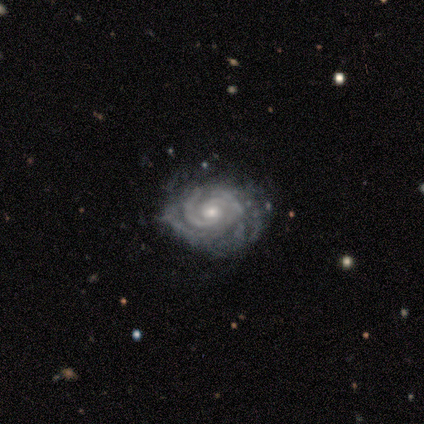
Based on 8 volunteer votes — Smooth or featured?
  - featured or disk: 100% *
  - smooth: 0%
  - star or artifact: 0%
Edge-on disk?
  - no: 100% *
  - yes: 0%
Bar?
  - no: 75% *
  - weak: 25%
  - strong: 0%
Spiral arms?
  - yes: 100% *
  - no: 0%
Spiral winding?
  - tight: 75% *
  - medium: 12%
  - loose: 12%
Spiral arm count?
  - 2: 62% *
  - can't tell: 25%
  - 3: 12%
  - 1: 0%
  - 4: 0%
  - more than 4: 0%
Bulge size?
  - moderate: 50% * (tied)
  - small: 50% * (tied)
  - dominant: 0%
  - large: 0%
  - none: 0%
Merging?
  - none: 62% *
  - minor disturbance: 25%
  - major disturbance: 12%
  - merger: 0%